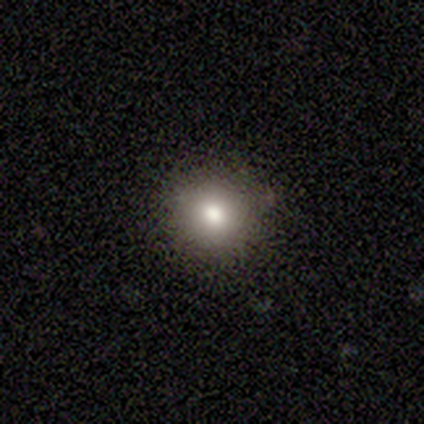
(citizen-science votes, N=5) smooth_or_featured: smooth (p=1.00)
how_rounded: round (p=0.60) [alt: in between p=0.40]
merging: none (p=0.80) [alt: minor disturbance p=0.20]